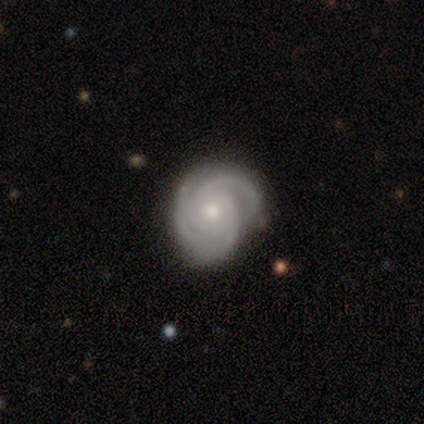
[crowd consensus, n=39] A featured or disk galaxy (95%) with no bar (73%), 3 (83%) tight (78%) spiral arms (97%) and a small central bulge (70%).

Vote fractions:
- Smooth or featured? featured or disk: 95% / smooth: 5% / star or artifact: 0%
- Edge-on disk? no: 100% / yes: 0%
- Bar? no: 73% / weak: 22% / strong: 5%
- Spiral arms? yes: 97% / no: 3%
- Spiral winding? tight: 78% / medium: 19% / loose: 3%
- Spiral arm count? 3: 83% / 2: 14% / can't tell: 3% / 1: 0% / 4: 0% / more than 4: 0%
- Bulge size? small: 70% / moderate: 24% / large: 5% / dominant: 0% / none: 0%
- Merging? none: 69% / minor disturbance: 21% / major disturbance: 10% / merger: 0%